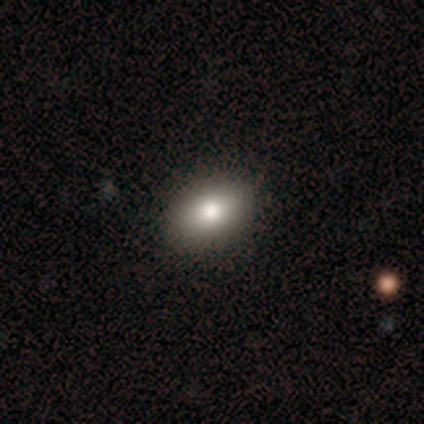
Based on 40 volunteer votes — smooth_or_featured: smooth (p=0.93) [alt: featured or disk p=0.05]
how_rounded: in between (p=0.89) [alt: round p=0.11]
merging: none (p=0.69)